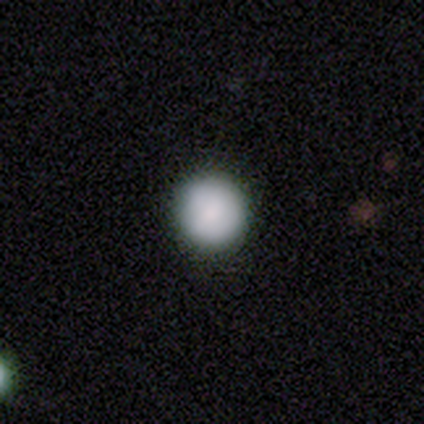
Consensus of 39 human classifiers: Overall: smooth (92%). How rounded: round (92%). Merging: none (95%).